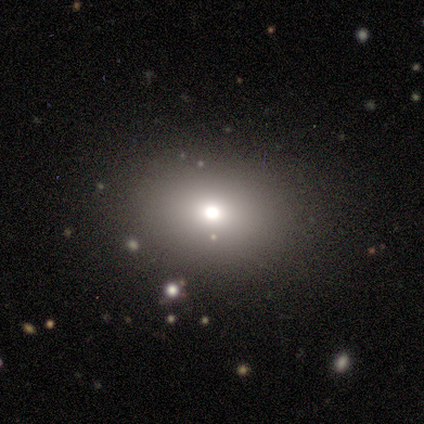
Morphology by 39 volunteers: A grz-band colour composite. It shows a smooth galaxy with no disk features (74%) that is in between round and cigar-shaped (66%). Merging: none (81%).